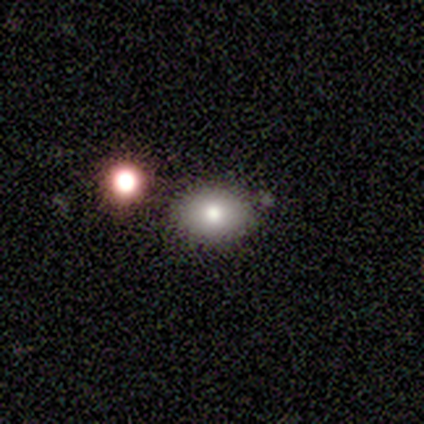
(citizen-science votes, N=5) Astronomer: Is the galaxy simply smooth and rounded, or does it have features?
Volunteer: smooth — 60% (runner-up: featured or disk, 40%).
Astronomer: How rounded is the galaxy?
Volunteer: in between — 67%.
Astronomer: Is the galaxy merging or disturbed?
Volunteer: none — 100%.